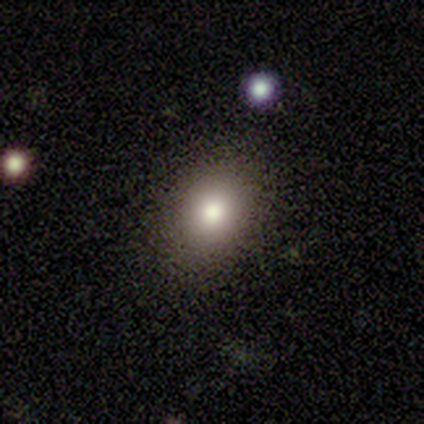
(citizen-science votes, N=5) Smooth or featured?
  - smooth: 80% *
  - featured or disk: 20%
  - star or artifact: 0%
How rounded?
  - in between: 75% *
  - round: 25%
  - cigar-shaped: 0%
Merging?
  - none: 60% *
  - minor disturbance: 20%
  - major disturbance: 20%
  - merger: 0%